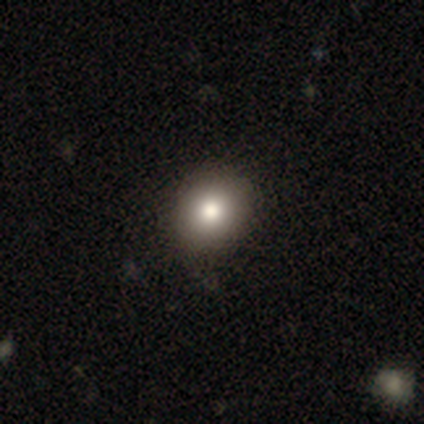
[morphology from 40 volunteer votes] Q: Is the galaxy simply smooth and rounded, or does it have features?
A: smooth — 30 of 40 (75%).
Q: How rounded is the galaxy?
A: round — 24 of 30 (80%).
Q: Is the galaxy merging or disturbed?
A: none — 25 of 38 (66%).